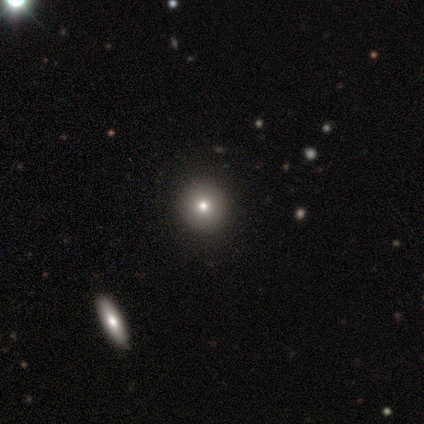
Morphology: type=star or artifact (60%).